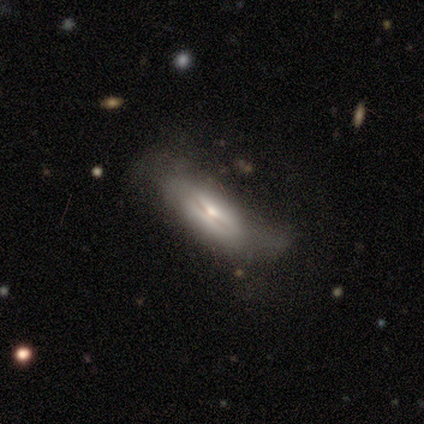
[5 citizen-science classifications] Overall: smooth (80%). How rounded: in between (75%). Merging: none (80%).